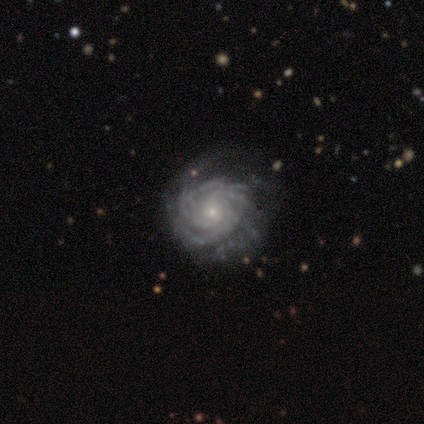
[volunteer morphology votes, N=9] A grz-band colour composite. It shows a featured or disk galaxy (89%) with no bar (57%), 3 (71%) medium (57%) spiral arms (100%) and a small central bulge (71%). Merging: none (67%).